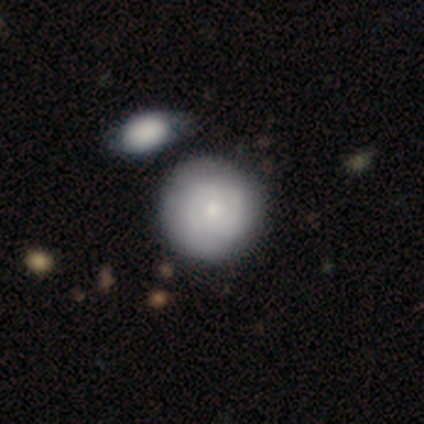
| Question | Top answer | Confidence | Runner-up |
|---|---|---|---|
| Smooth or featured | smooth | 55% | featured or disk (45%) |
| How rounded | round | 91% | in between (5%) |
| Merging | none | 45% | minor disturbance (15%) |